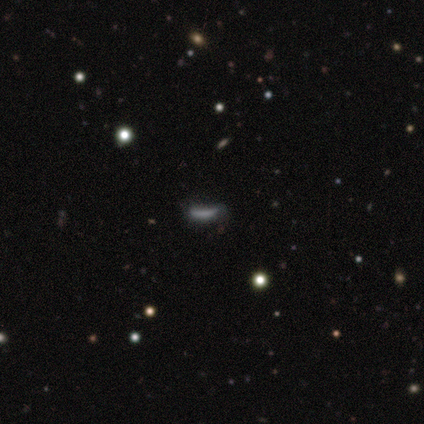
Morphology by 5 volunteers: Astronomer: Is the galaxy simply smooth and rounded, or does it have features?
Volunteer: smooth — 40%, tied with star or artifact at 40%.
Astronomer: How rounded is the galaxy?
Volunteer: in between — 50%, tied with cigar-shaped at 50%.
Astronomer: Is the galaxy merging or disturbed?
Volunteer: major disturbance — 67%.